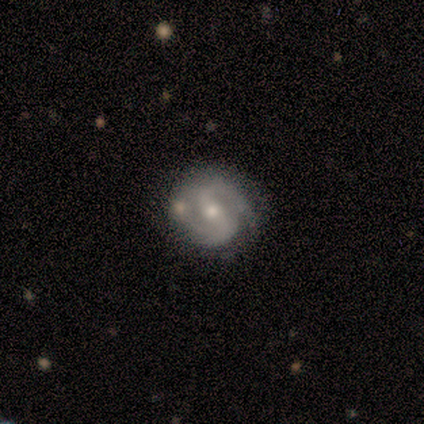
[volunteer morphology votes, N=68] smooth_or_featured: featured or disk (p=0.94) [alt: smooth p=0.04]
disk_edge_on: no (p=1.00)
bar: weak (p=0.50) [alt: strong p=0.25]
has_spiral_arms: yes (p=0.98) [alt: no p=0.02]
spiral_winding: medium (p=0.51) [alt: tight p=0.40]
spiral_arm_count: 2 (p=0.92) [alt: 3 p=0.06]
bulge_size: moderate (p=0.58) [alt: small p=0.39]
merging: none (p=0.84) [alt: minor disturbance p=0.10]